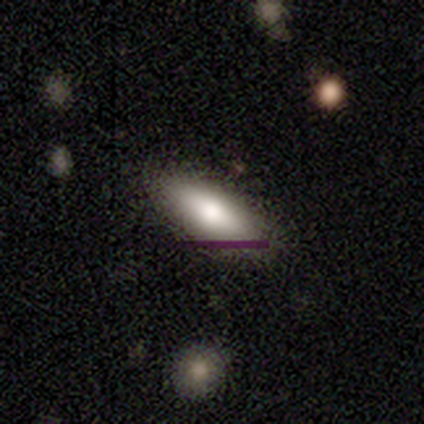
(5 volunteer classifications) Overall: smooth (100%). How rounded: in between (60%; cigar-shaped 40%). Merging: none (100%).